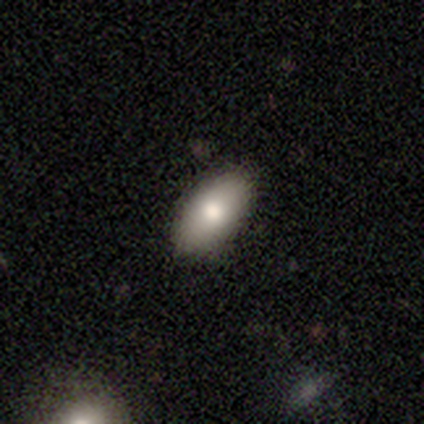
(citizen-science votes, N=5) Morphology: type=smooth (80%); roundness=in between (100%); merging=none (80%).